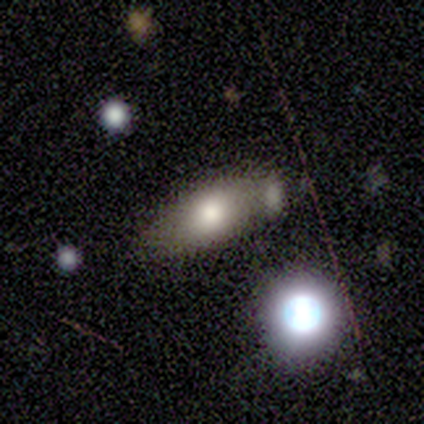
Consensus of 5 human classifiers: smooth_or_featured: smooth (p=0.60) [alt: featured or disk p=0.20]
how_rounded: in between (p=0.67) [alt: cigar-shaped p=0.33]
merging: none (p=0.50) [tied with: merger p=0.50]